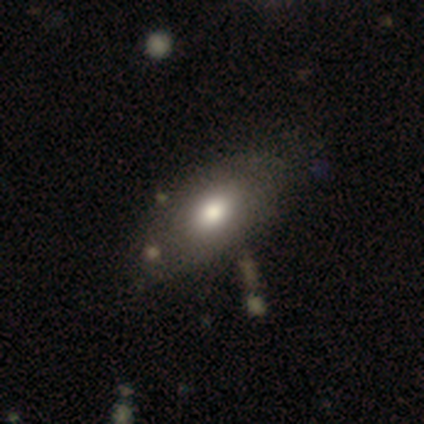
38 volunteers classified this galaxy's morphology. A smooth galaxy with no disk features (79%) that is in between round and cigar-shaped (93%).

Vote fractions:
- Smooth or featured? smooth: 79% / featured or disk: 13% / star or artifact: 8%
- How rounded? in between: 93% / cigar-shaped: 7% / round: 0%
- Merging? none: 49% / minor disturbance: 14% / merger: 9% / major disturbance: 3%